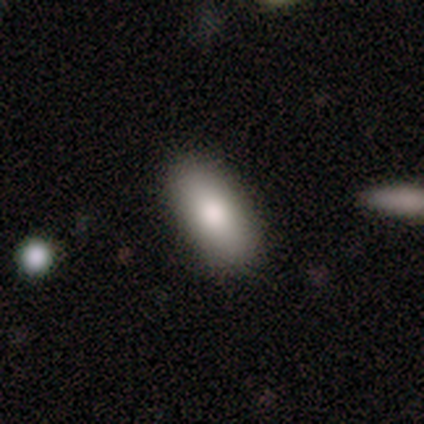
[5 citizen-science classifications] This appears to be a smooth galaxy with no disk features (100%) that is in between round and cigar-shaped (100%). Merging: none (100%).